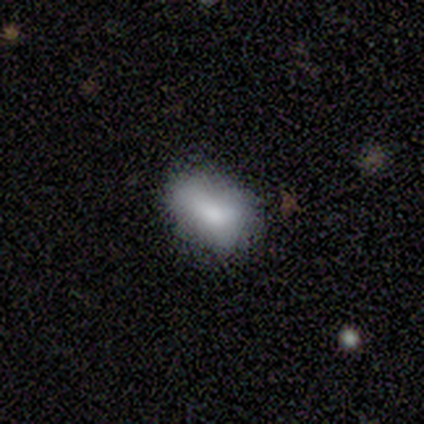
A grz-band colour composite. It shows a smooth galaxy with no disk features (79%) that is in between round and cigar-shaped (93%). Merging: none (80%).